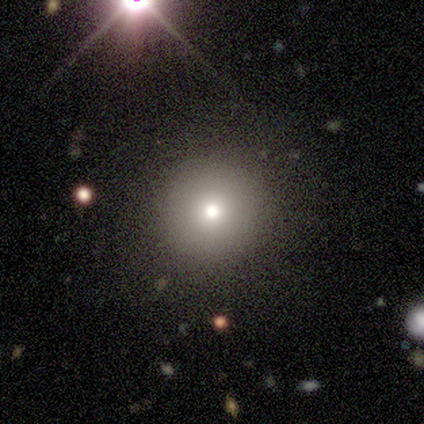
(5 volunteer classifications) smooth-or-featured: smooth: 60% | featured or disk: 20% | star or artifact: 20%
  how-rounded: round: 100% | in between: 0% | cigar-shaped: 0%
  merging: none: 100% | minor disturbance: 0% | major disturbance: 0% | merger: 0%